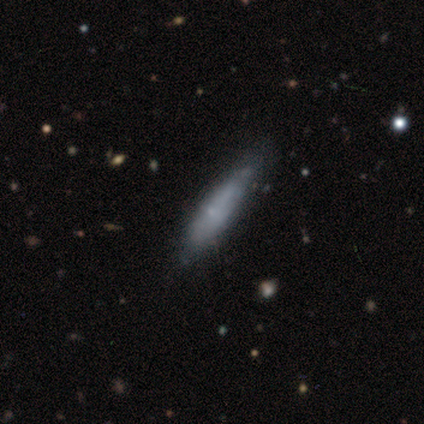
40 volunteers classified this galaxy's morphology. Smooth or featured? 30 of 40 (75%) said smooth. How rounded? 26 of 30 (87%) said cigar-shaped. Merging? 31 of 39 (79%) said none.